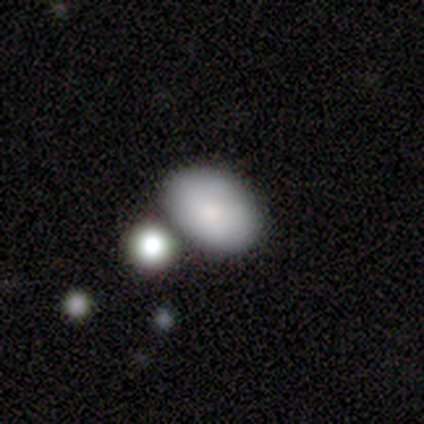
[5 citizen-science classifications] Smooth or featured? 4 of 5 (80%) said smooth. How rounded? 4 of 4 (100%) said in between. Merging? 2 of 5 (40%) said minor disturbance.